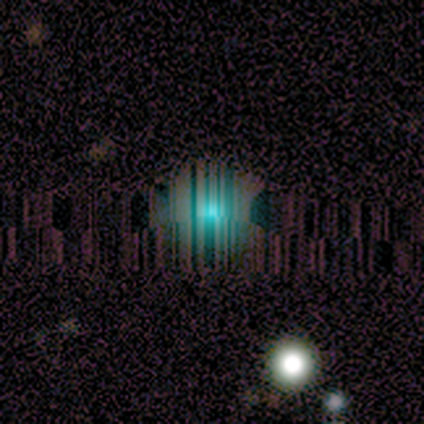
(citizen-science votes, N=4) Volunteers were most divided on "smooth or featured" (2-way tie): smooth: 50%, star or artifact: 50%, featured or disk: 0%; "merging" (2-way tie): none: 50%, merger: 50%, minor disturbance: 0%, major disturbance: 0%. More confident: how rounded — round (100%).